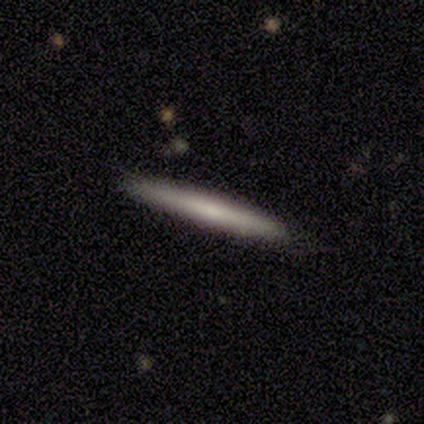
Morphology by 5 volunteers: This appears to be a smooth galaxy with no disk features (80%) that is cigar-shaped (100%). Merging: none (100%).